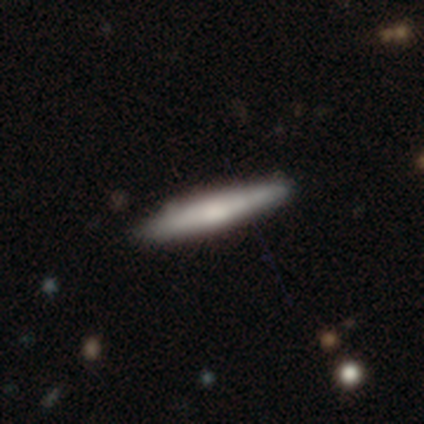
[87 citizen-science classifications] Smooth or featured?
  - smooth: 60% *
  - featured or disk: 36%
  - star or artifact: 5%
How rounded?
  - cigar-shaped: 96% *
  - in between: 4%
  - round: 0%
Merging?
  - none: 86% *
  - minor disturbance: 10%
  - major disturbance: 2%
  - merger: 2%